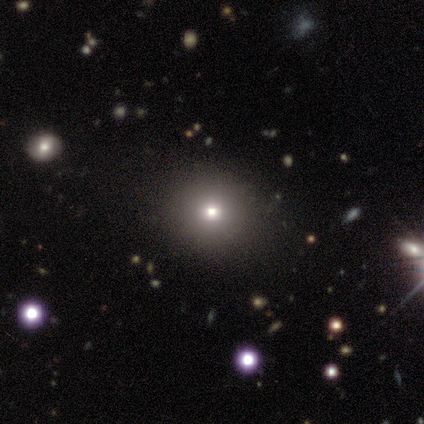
This is likely a smooth galaxy (60%). How rounded: clearly round (100%). Merging: clearly none (100%).